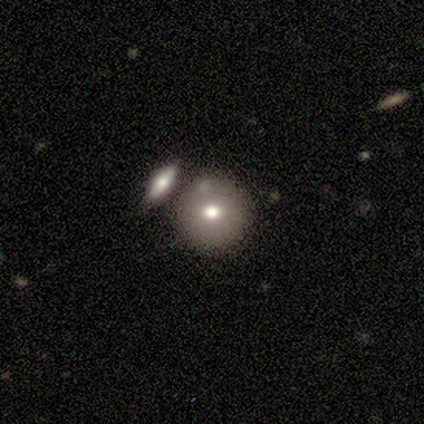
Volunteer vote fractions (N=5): This is clearly a smooth galaxy (100%). How rounded: clearly round (100%). Merging: clearly none (80%).